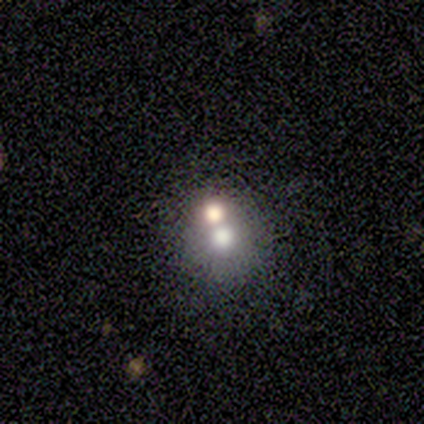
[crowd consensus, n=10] Morphology: type=smooth (80%); roundness=round (88%); merging=merger (67%).